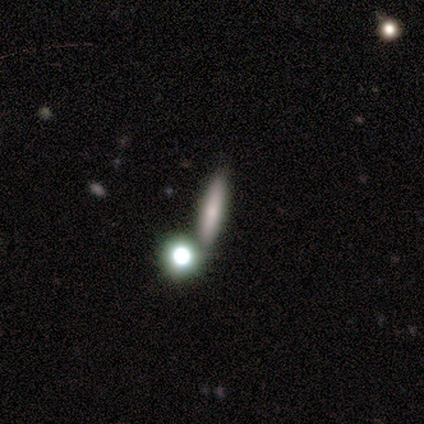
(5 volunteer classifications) Smooth or featured?
  - smooth: 80% *
  - featured or disk: 20%
  - star or artifact: 0%
How rounded?
  - cigar-shaped: 100% *
  - round: 0%
  - in between: 0%
Merging?
  - none: 80% *
  - merger: 20%
  - minor disturbance: 0%
  - major disturbance: 0%